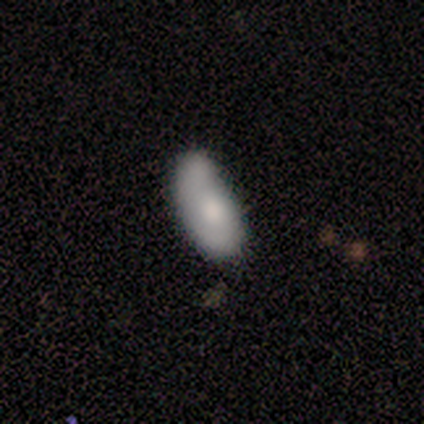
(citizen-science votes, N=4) Smooth or featured?
  - smooth: 50% * (tied)
  - featured or disk: 50% * (tied)
  - star or artifact: 0%
How rounded?
  - in between: 100% *
  - round: 0%
  - cigar-shaped: 0%
Merging?
  - none: 25% * (tied)
  - minor disturbance: 25% * (tied)
  - major disturbance: 25% * (tied)
  - merger: 25% * (tied)